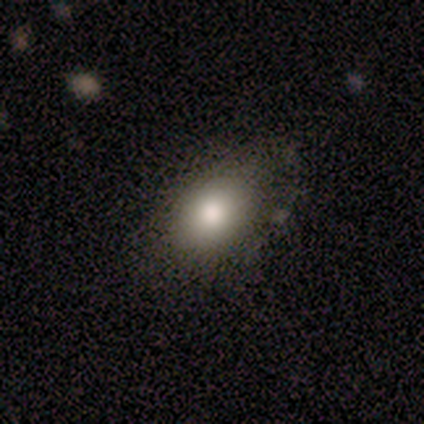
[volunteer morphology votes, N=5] smooth_or_featured: smooth (p=1.00)
how_rounded: in between (p=1.00)
merging: none (p=0.60) [alt: minor disturbance p=0.40]